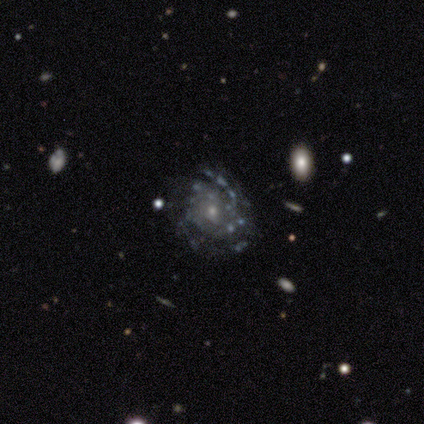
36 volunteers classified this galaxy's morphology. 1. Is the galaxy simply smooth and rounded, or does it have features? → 94% featured or disk, 6% star or artifact, 0% smooth.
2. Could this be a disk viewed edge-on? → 100% no, 0% yes.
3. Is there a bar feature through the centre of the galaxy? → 74% no, 24% weak, 3% strong.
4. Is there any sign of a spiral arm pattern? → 97% yes, 3% no.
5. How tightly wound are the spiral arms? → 61% tight, 30% medium, 9% loose.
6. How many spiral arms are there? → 48% can't tell, 27% 3, 9% 2, 6% 4, 6% more than 4, 3% 1.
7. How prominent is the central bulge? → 79% small, 15% moderate, 3% dominant, 3% none, 0% large.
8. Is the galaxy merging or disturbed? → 71% none, 18% minor disturbance, 12% major disturbance, 0% merger.